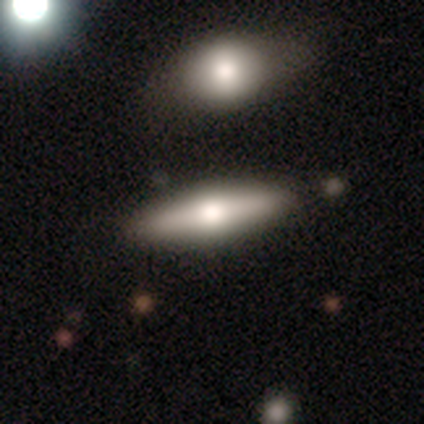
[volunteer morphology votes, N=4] Smooth or featured?
  - smooth: 50% *
  - featured or disk: 25%
  - star or artifact: 25%
How rounded?
  - in between: 50% * (tied)
  - cigar-shaped: 50% * (tied)
  - round: 0%
Merging?
  - none: 100% *
  - minor disturbance: 0%
  - major disturbance: 0%
  - merger: 0%